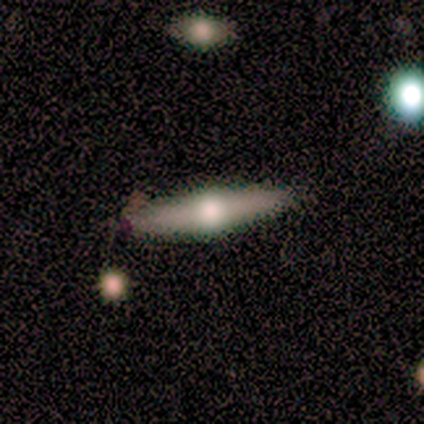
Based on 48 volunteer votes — Q: Smooth or featured?
A: featured or disk (67%); runner-up: smooth (21%)
Q: Edge-on disk?
A: yes (91%); runner-up: no (9%)
Q: Edge-on bulge?
A: rounded (90%); runner-up: boxy (7%)
Q: Merging?
A: none (86%); runner-up: minor disturbance (10%)